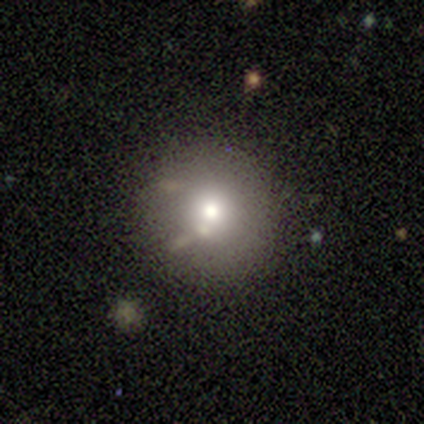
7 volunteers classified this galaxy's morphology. Smooth or featured? 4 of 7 (57%) said featured or disk. Edge-on disk? 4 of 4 (100%) said no. Bar? 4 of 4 (100%) said no. Spiral arms? 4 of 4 (100%) said no. Bulge size? 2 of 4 (50%, tied with small) said moderate. Merging? 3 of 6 (50%) said none.